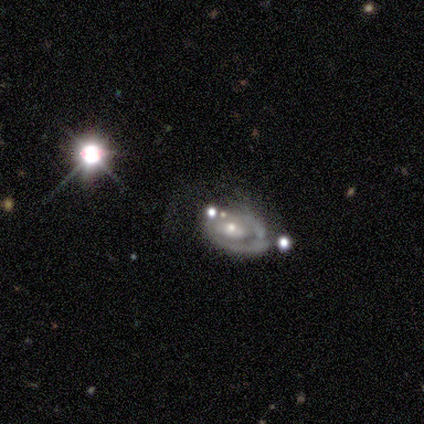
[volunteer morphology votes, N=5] Volunteers were most divided on "spiral arm count" (3-way tie): 1: 33%, 2: 33%, can't tell: 33%, 3: 0%, 4: 0%, more than 4: 0%. More confident: edge-on disk — no (100%); bulge size — small (100%); smooth or featured — featured or disk (80%); spiral arms — yes (75%); merging — none (75%); spiral winding — tight (67%); bar — no (50%).